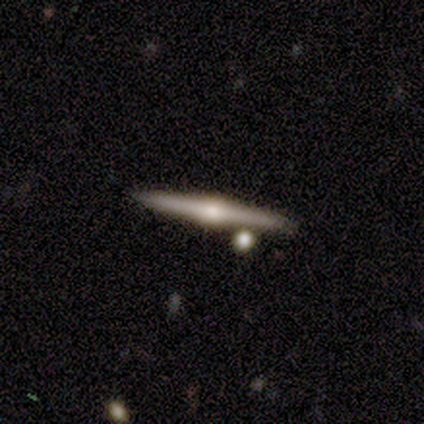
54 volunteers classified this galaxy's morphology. smooth-or-featured: featured or disk: 93% | smooth: 7% | star or artifact: 0%
  disk-edge-on: yes: 100% | no: 0%
    edge-on-bulge: rounded: 90% | boxy: 8% | none: 2%
  merging: none: 83% | merger: 11% | minor disturbance: 4% | major disturbance: 2%